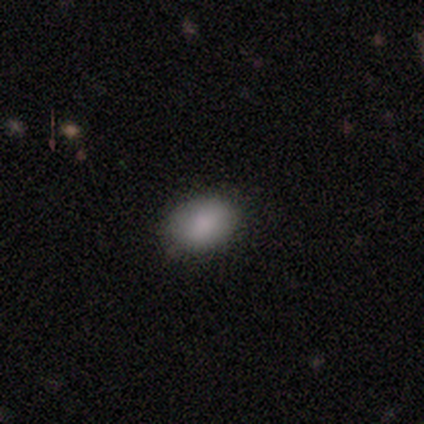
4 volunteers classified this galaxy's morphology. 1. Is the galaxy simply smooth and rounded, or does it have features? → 75% smooth, 25% star or artifact, 0% featured or disk.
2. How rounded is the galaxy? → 100% in between, 0% round, 0% cigar-shaped.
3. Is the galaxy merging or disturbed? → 100% none, 0% minor disturbance, 0% major disturbance, 0% merger.